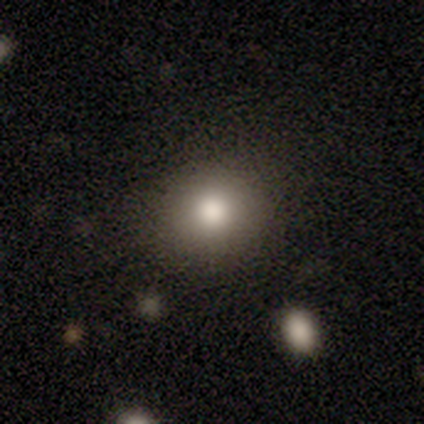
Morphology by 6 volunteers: Volunteers were most divided on "smooth or featured": smooth: 83%, featured or disk: 17%, star or artifact: 0%. More confident: how rounded — round (100%); merging — none (83%).